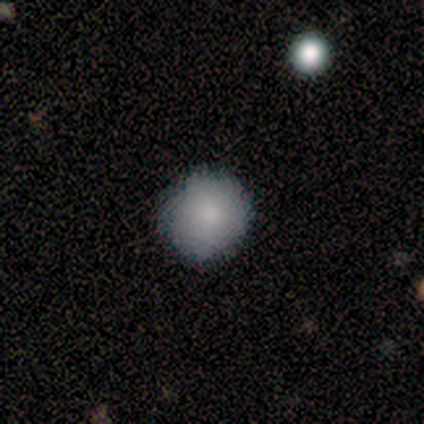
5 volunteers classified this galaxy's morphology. Smooth or featured: smooth — 100%
How rounded: round — 100%
Merging: none — 100%